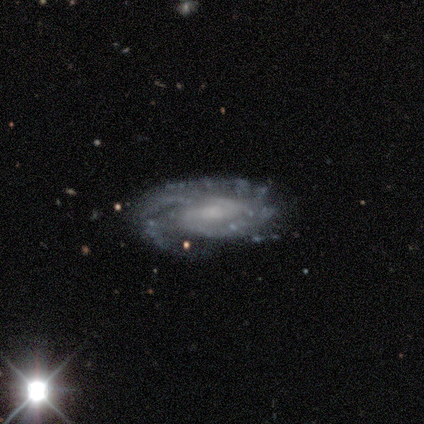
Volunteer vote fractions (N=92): smooth-or-featured: featured or disk: 89% | smooth: 7% | star or artifact: 4%
  disk-edge-on: no: 98% | yes: 2%
    bar: weak: 41% | no: 36% | strong: 22%
    has-spiral-arms: yes: 96% | no: 4%
      spiral-winding: tight: 55% | medium: 38% | loose: 8%
      spiral-arm-count: 2: 36% | can't tell: 25% | more than 4: 18% | 3: 9% | 4: 8% | 1: 4%
    bulge-size: small: 38% | moderate: 30% | none: 26% | large: 6% | dominant: 0%
  merging: none: 66% | minor disturbance: 23% | major disturbance: 6% | merger: 6%